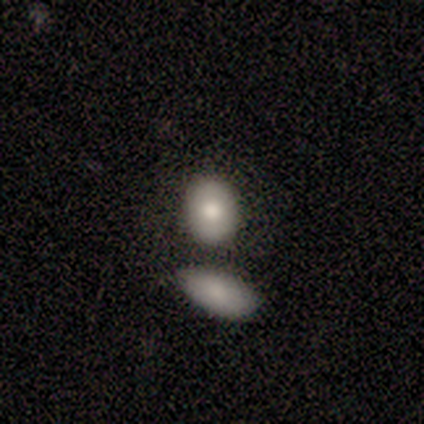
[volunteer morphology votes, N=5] Smooth or featured? smooth (100%)
How rounded? in between (60%)
Merging? none (60%)